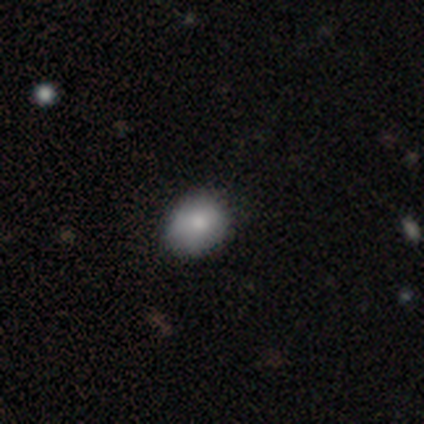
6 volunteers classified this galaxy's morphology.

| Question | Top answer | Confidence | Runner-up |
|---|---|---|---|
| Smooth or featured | smooth | 83% | star or artifact (17%) |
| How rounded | round | 60% | in between (40%) |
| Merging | none | 80% | minor disturbance (20%) |